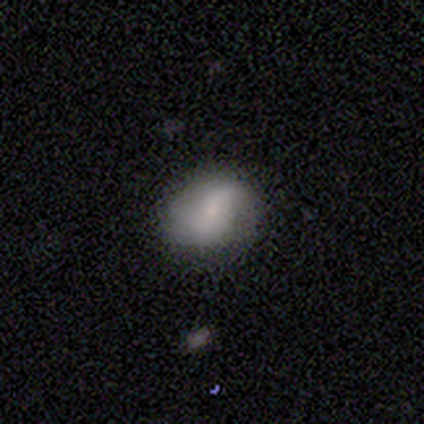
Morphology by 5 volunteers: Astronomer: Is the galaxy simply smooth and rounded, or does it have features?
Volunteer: smooth — 60%.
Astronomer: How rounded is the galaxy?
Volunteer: round — 67%.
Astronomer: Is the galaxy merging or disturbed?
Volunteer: none — 50%, tied with minor disturbance at 50%.